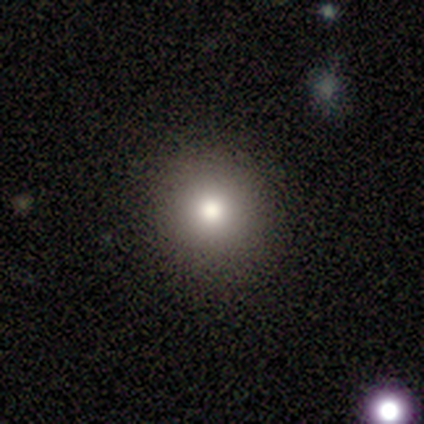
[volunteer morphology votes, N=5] smooth_or_featured: smooth (p=0.80) [alt: star or artifact p=0.20]
how_rounded: round (p=1.00)
merging: none (p=1.00)